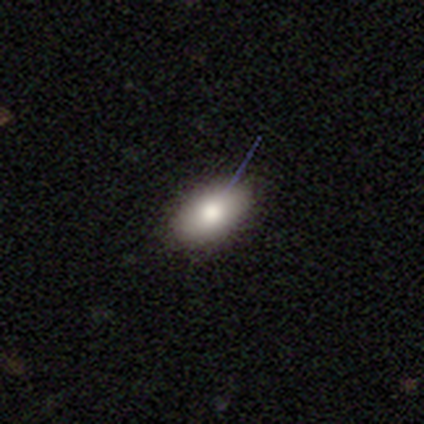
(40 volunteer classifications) Q: Smooth or featured?
A: smooth (78%); runner-up: featured or disk (18%)
Q: How rounded?
A: in between (97%); runner-up: cigar-shaped (3%)
Q: Merging?
A: none (92%); runner-up: minor disturbance (5%)